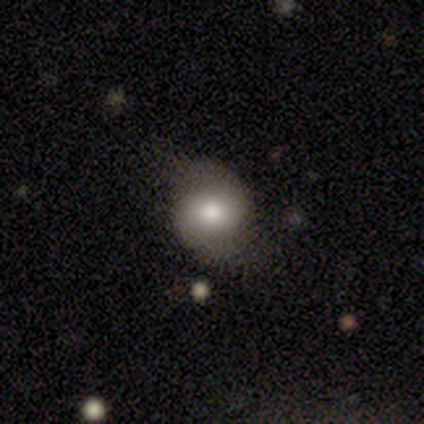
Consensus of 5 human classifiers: A smooth galaxy with no disk features (40%, tied with featured or disk) that is round (100%).

Vote fractions:
- Smooth or featured? smooth: 40% (tied) / featured or disk: 40% (tied) / star or artifact: 20%
- How rounded? round: 100% / in between: 0% / cigar-shaped: 0%
- Merging? none: 100% / minor disturbance: 0% / major disturbance: 0% / merger: 0%